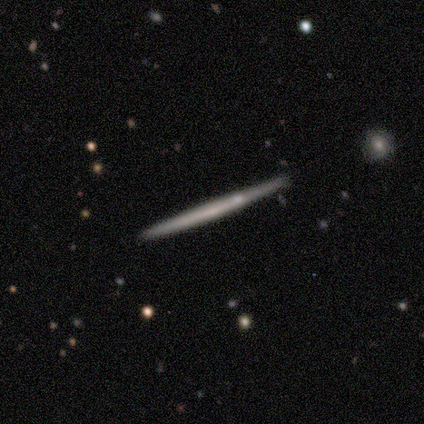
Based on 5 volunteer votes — Morphology: type=featured or disk (80%); edge-on=yes (100%); edge-on bulge=none (75%); merging=none (80%).